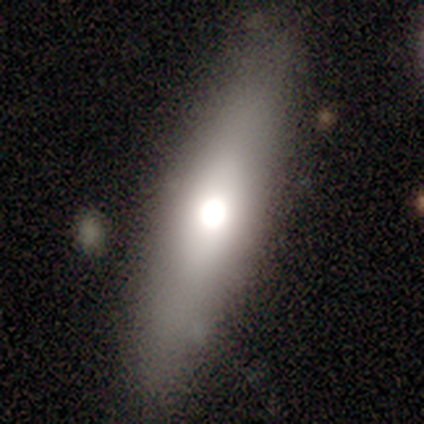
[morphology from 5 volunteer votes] This appears to be a featured or disk galaxy (60%) with no bar (100%), no spiral arms (100%) and a moderate central bulge (100%). Merging: none (100%).